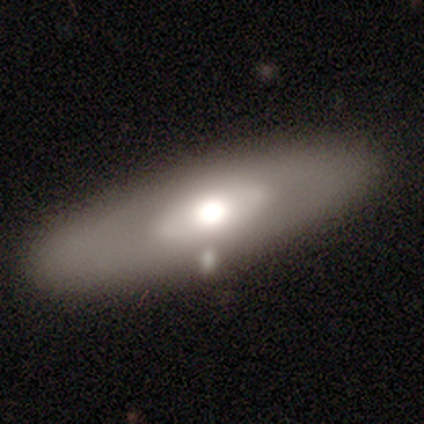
Overall: featured or disk (80%). Edge-on disk: no (100%). Bar: no (75%). Spiral arms: no (100%). Bulge size: moderate (50%, tied with small). Merging: none (50%; minor disturbance 25%).